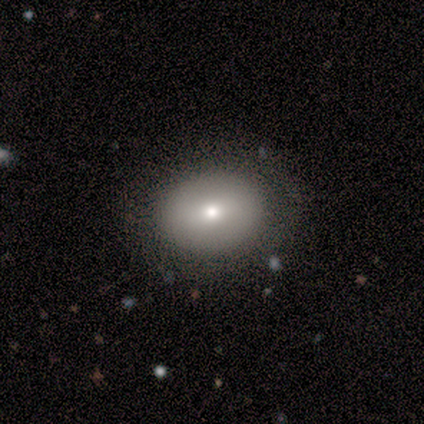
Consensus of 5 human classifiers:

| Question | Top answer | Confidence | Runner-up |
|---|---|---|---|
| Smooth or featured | smooth | 80% | featured or disk (20%) |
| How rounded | round | 50% | tied: in between (50%) |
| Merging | none | 100% | — |